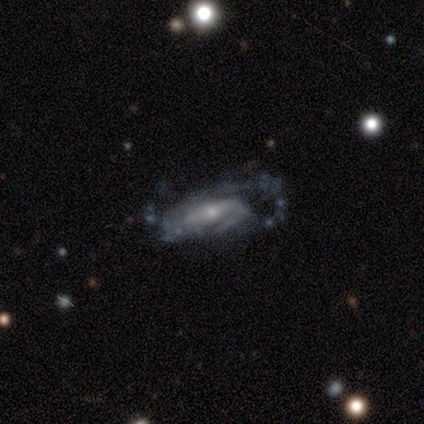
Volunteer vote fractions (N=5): Volunteers were most divided on "merging" (2-way tie): minor disturbance: 40%, major disturbance: 40%, none: 20%, merger: 0%. More confident: spiral arms — yes (100%); smooth or featured — featured or disk (80%); edge-on disk — no (75%); bar — no (67%); spiral winding — medium (67%); spiral arm count — can't tell (67%); bulge size — small (67%).